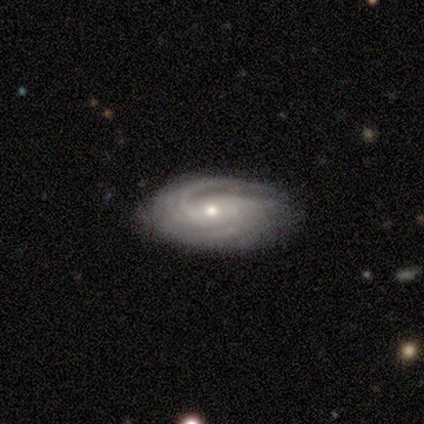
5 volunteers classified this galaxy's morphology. Q: Smooth or featured?
A: featured or disk (100%)
Q: Edge-on disk?
A: no (100%)
Q: Bar?
A: no (60%); runner-up: weak (40%)
Q: Spiral arms?
A: yes (100%)
Q: Spiral winding?
A: medium (80%); runner-up: tight (20%)
Q: Spiral arm count?
A: 4 (60%); runner-up: 2 (20%)
Q: Bulge size?
A: moderate (100%)
Q: Merging?
A: none (80%); runner-up: major disturbance (20%)